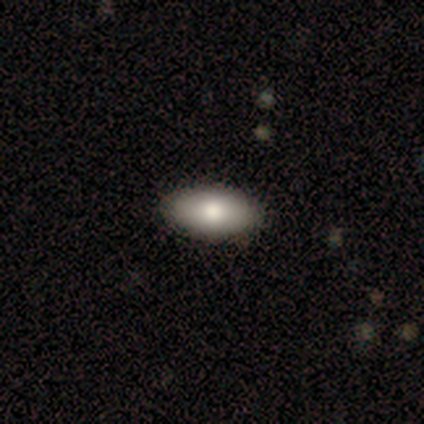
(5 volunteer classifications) A smooth galaxy with no disk features (100%) that is in between round and cigar-shaped (100%). Merging: none (100%).